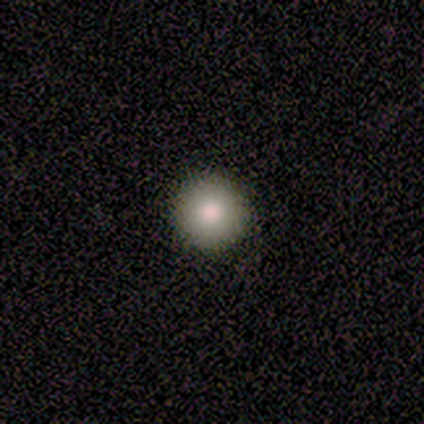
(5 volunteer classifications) Overall: smooth (80%). How rounded: round (100%). Merging: none (100%).